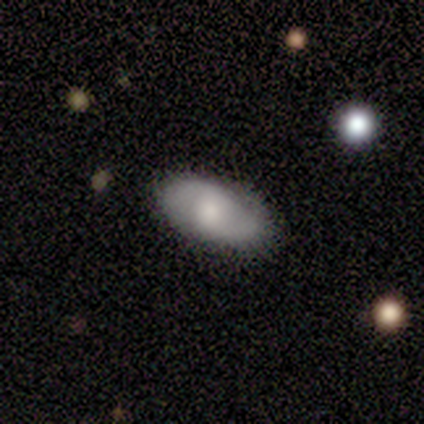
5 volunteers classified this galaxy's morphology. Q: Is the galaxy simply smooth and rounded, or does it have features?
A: featured or disk — 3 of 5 (60%).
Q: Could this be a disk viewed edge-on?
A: no — 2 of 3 (67%).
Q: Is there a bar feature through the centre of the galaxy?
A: strong — 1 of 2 (50%, tied with weak).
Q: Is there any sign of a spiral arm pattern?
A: yes — 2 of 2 (100%).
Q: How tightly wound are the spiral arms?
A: medium — 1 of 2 (50%, tied with loose).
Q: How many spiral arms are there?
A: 2 — 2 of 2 (100%).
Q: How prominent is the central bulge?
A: small — 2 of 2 (100%).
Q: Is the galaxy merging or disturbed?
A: none — 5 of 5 (100%).